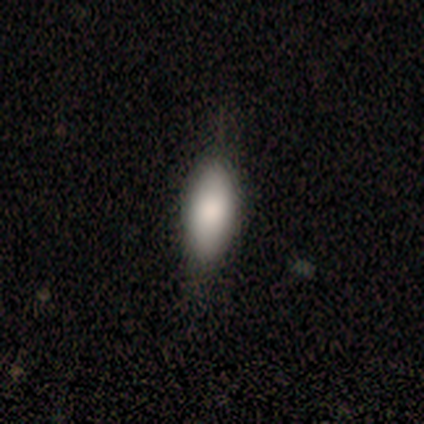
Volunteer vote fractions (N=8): Smooth or featured? smooth (100%)
How rounded? in between (88%)
Merging? none (50%, tied with minor disturbance)